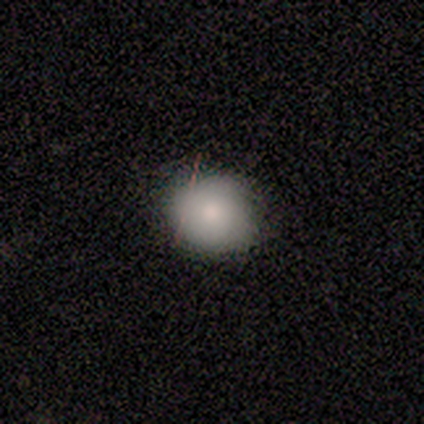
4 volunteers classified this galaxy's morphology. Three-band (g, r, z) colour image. It shows a smooth galaxy with no disk features (100%) that is round (75%). Merging: none (50%).